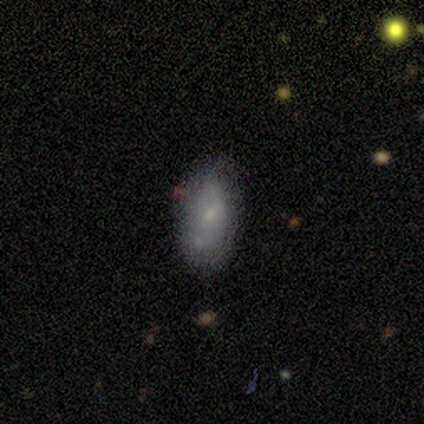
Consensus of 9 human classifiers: This appears to be a smooth galaxy with no disk features (56%) that is in between round and cigar-shaped (80%). Merging: none (62%).